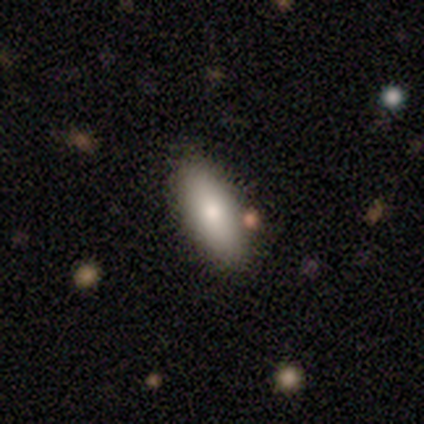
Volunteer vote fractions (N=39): smooth-or-featured: smooth: 77% | featured or disk: 13% | star or artifact: 10%
  how-rounded: in between: 73% | cigar-shaped: 27% | round: 0%
  merging: none: 86% | minor disturbance: 9% | major disturbance: 6% | merger: 0%